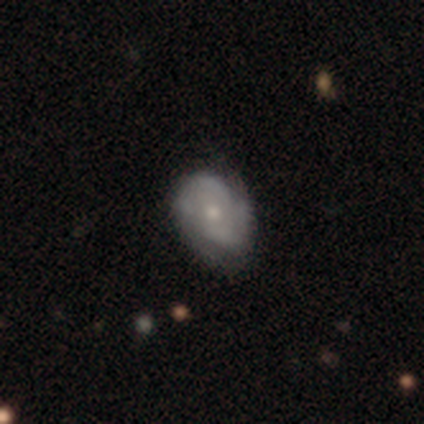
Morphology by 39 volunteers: type=featured or disk (62%); edge-on=no (96%); bar=no (70%); spiral arms=yes (87%); winding=tight (55%); arm count=2 (65%); bulge=moderate (57%); merging=none (51%).